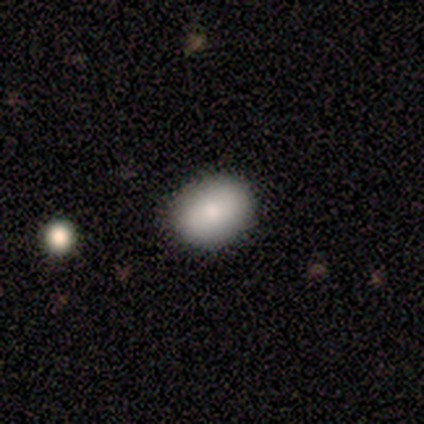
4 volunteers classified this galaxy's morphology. This appears to be a smooth galaxy with no disk features (75%) that is in between round and cigar-shaped (100%). Merging: none (75%).